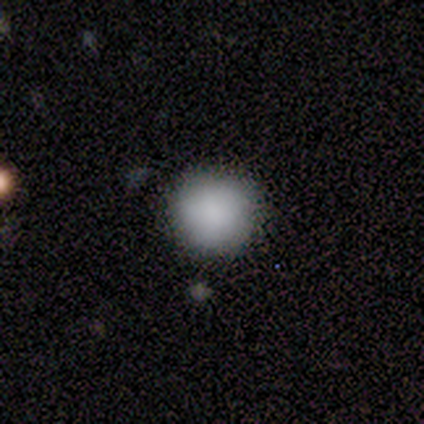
smooth 60%, featured or disk 20%, star or artifact 20%. Down the decision tree: how rounded — round (100%); merging — none (75%).